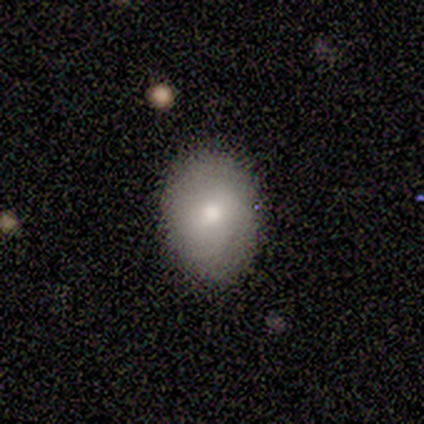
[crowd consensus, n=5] Smooth or featured: smooth — 80% (featured or disk — 20%)
How rounded: in between — 75% (round — 25%)
Merging: none — 60% (minor disturbance — 40%)